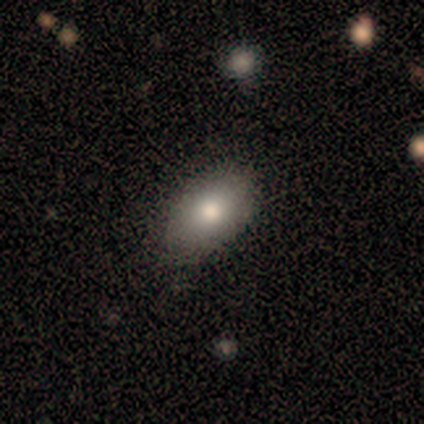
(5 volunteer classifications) Q: Smooth or featured?
A: smooth (100%)
Q: How rounded?
A: in between (100%)
Q: Merging?
A: none (100%)